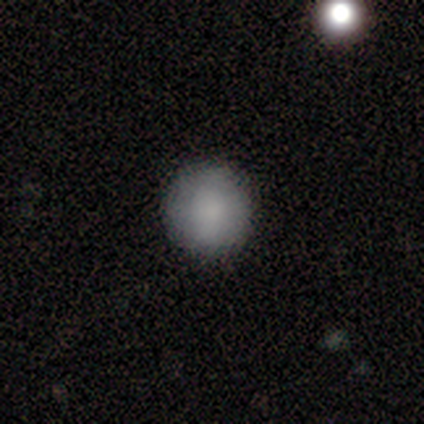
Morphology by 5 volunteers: Consensus on every question: smooth or featured — smooth (100%); how rounded — round (100%); merging — none (100%).